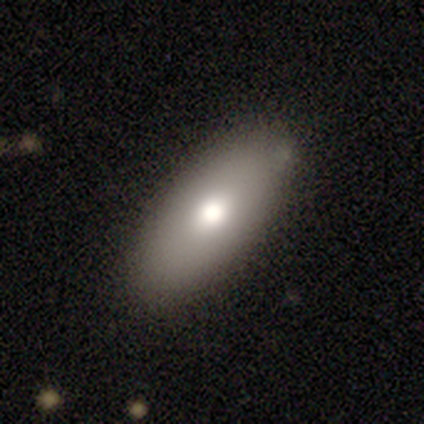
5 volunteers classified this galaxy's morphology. This appears to be a smooth galaxy with no disk features (80%) that is in between round and cigar-shaped (75%). Merging: none (80%).